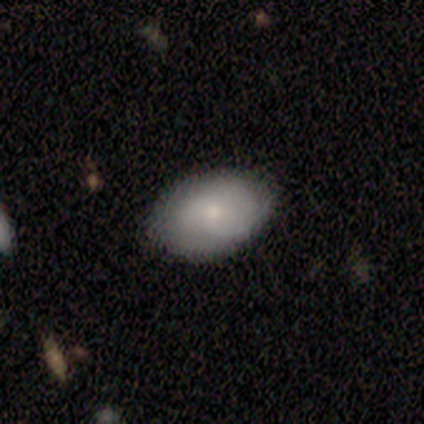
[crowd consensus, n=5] smooth 60%, featured or disk 40%, star or artifact 0%. Down the decision tree: how rounded — in between (100%); merging — none (100%).